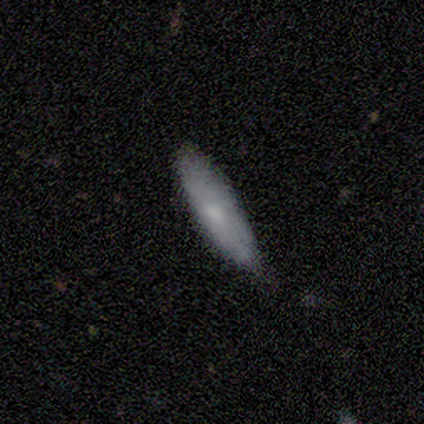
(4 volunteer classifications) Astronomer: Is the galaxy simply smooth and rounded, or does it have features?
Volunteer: smooth — 100%.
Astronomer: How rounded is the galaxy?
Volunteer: cigar-shaped — 75%.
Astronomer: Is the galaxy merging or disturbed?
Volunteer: none — 75%.